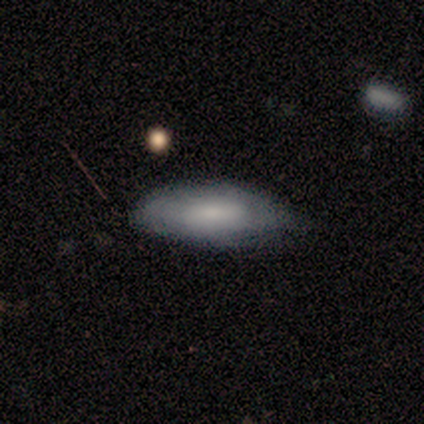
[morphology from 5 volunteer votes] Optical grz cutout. It shows a smooth galaxy with no disk features (60%) that is in between round and cigar-shaped (100%). Merging: none (50%, tied with minor disturbance).